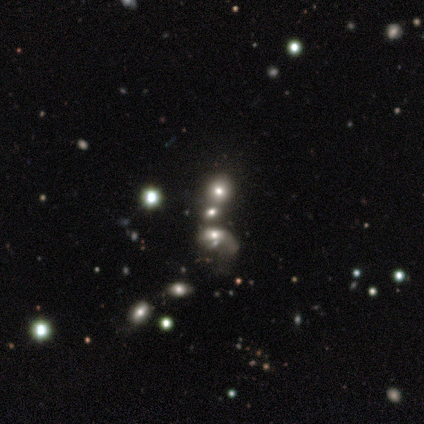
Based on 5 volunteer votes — A star or artifact, not a galaxy (60%).